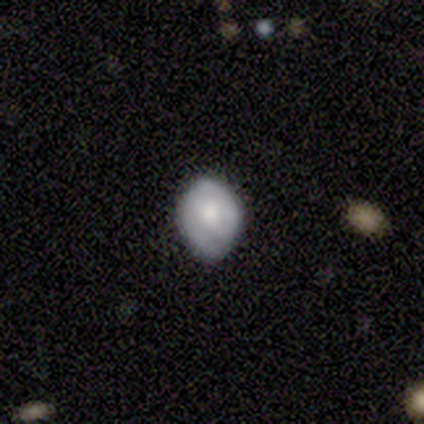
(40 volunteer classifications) smooth-or-featured: smooth: 50% | featured or disk: 40% | star or artifact: 10%
  how-rounded: in between: 70% | round: 30% | cigar-shaped: 0%
  merging: none: 53% | minor disturbance: 44% | merger: 3% | major disturbance: 0%